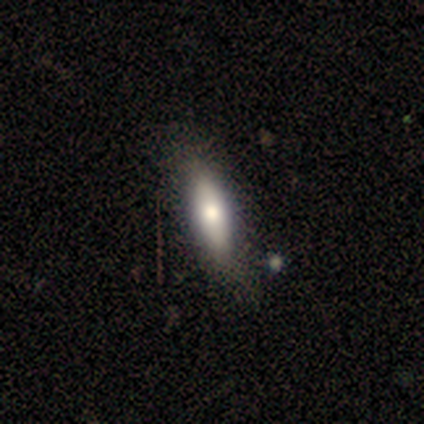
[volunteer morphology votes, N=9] A smooth galaxy with no disk features (67%) that is in between round and cigar-shaped (50%, tied with cigar-shaped).

Vote fractions:
- Smooth or featured? smooth: 67% / featured or disk: 33% / star or artifact: 0%
- How rounded? in between: 50% (tied) / cigar-shaped: 50% (tied) / round: 0%
- Merging? none: 67% / minor disturbance: 33% / major disturbance: 0% / merger: 0%